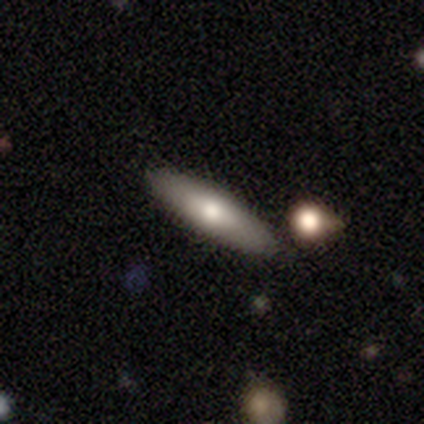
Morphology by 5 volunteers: Overall: smooth (60%; featured or disk 20%). How rounded: in between (67%; cigar-shaped 33%). Merging: none (100%).